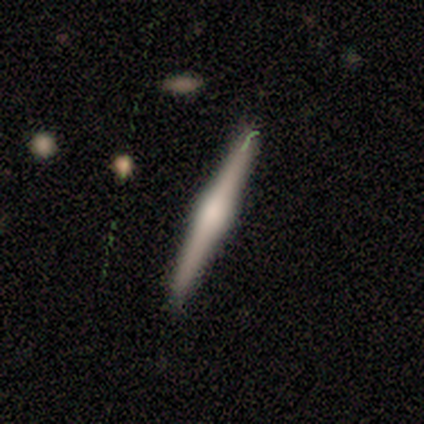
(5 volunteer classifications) Morphology: type=featured or disk (60%); edge-on=yes (100%); edge-on bulge=rounded (100%); merging=none (80%).